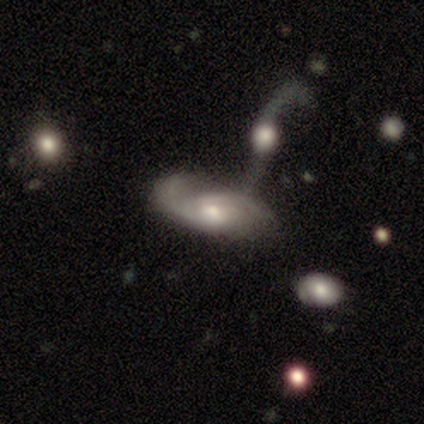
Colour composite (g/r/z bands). It shows a featured or disk galaxy (79%) with no bar (62%), 2 (67%) medium (67%) spiral arms (92%) and a moderate central bulge (58%). Merging: merger (36%).